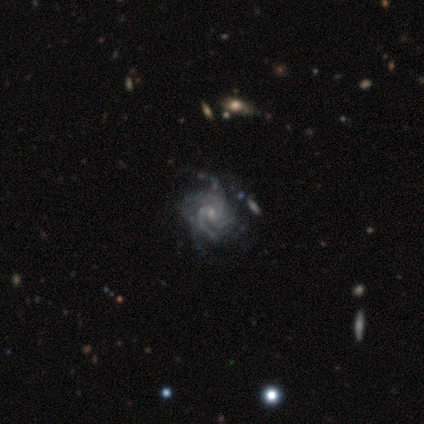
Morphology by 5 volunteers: Volunteers were most divided on "merging": minor disturbance: 60%, none: 40%, major disturbance: 0%, merger: 0%. Remaining: smooth or featured — featured or disk (100%); edge-on disk — no (100%); bar — no (80%); spiral arms — yes (80%); spiral arm count — 3 (75%); spiral winding — tight (50%); bulge size — small (40%).